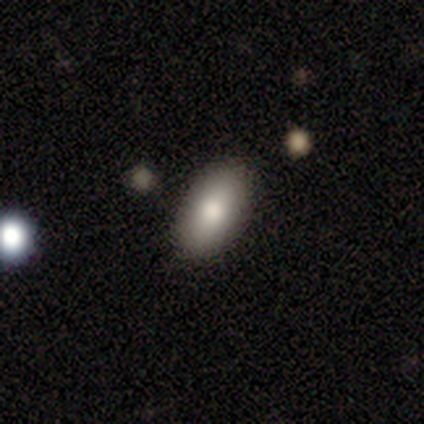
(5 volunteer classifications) Smooth or featured?
  - smooth: 40% * (tied)
  - star or artifact: 40% * (tied)
  - featured or disk: 20%
How rounded?
  - in between: 100% *
  - round: 0%
  - cigar-shaped: 0%
Merging?
  - none: 100% *
  - minor disturbance: 0%
  - major disturbance: 0%
  - merger: 0%